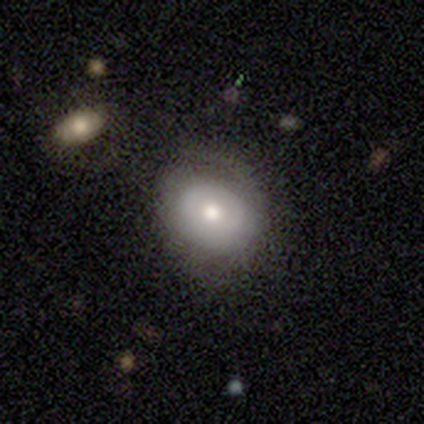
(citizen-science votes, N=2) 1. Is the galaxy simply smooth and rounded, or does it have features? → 100% featured or disk, 0% smooth, 0% star or artifact.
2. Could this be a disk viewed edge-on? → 100% no, 0% yes.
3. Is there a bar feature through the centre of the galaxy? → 100% no, 0% strong, 0% weak.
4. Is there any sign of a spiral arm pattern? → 50% yes (tied), 50% no (tied).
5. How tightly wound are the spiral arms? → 100% tight, 0% medium, 0% loose.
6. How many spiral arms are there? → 100% can't tell, 0% 1, 0% 2, 0% 3, 0% 4, 0% more than 4.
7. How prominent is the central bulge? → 50% moderate (tied), 50% small (tied), 0% dominant, 0% large, 0% none.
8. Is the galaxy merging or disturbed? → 100% major disturbance, 0% none, 0% minor disturbance, 0% merger.